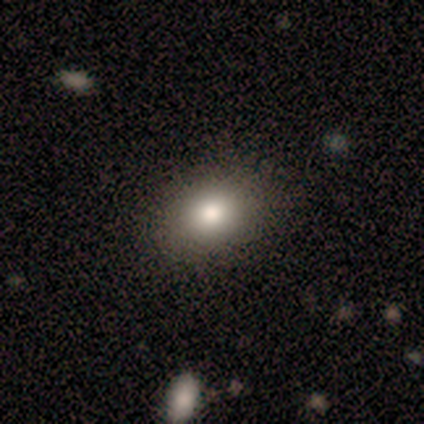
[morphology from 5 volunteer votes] type=smooth (80%); roundness=in between (75%); merging=none (100%).